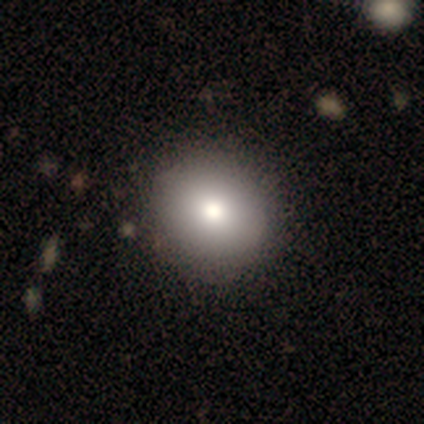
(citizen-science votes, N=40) Smooth or featured: smooth — 88% (featured or disk — 12%)
How rounded: round — 83% (in between — 17%)
Merging: none — 82% (minor disturbance — 2%)